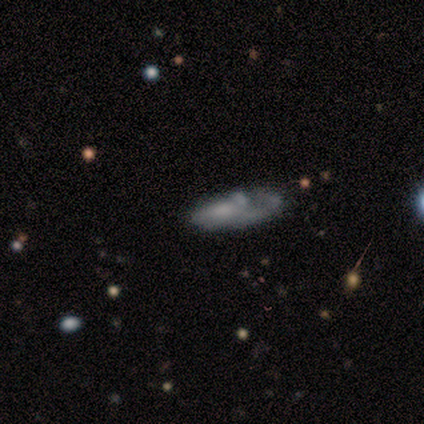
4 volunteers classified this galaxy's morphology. featured or disk 75%, smooth 25%, star or artifact 0%. Down the decision tree: edge-on disk — no (67%); bar — no (100%); spiral arms — no (100%); bulge size — large (50%, tied with small); merging — none (75%).